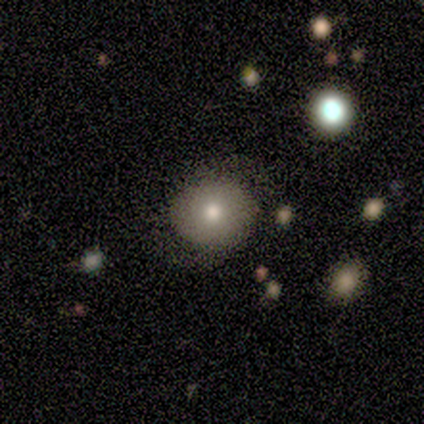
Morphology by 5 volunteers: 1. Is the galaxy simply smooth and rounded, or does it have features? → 60% featured or disk, 40% smooth, 0% star or artifact.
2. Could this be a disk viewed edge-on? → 100% no, 0% yes.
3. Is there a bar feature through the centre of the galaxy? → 100% no, 0% strong, 0% weak.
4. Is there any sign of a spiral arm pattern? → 67% yes, 33% no.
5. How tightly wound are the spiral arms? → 50% tight (tied), 50% medium (tied), 0% loose.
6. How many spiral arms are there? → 100% 2, 0% 1, 0% 3, 0% 4, 0% more than 4, 0% can't tell.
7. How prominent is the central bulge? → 33% dominant (tied), 33% moderate (tied), 33% small (tied), 0% large, 0% none.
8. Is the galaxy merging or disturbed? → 60% none, 40% minor disturbance, 0% major disturbance, 0% merger.